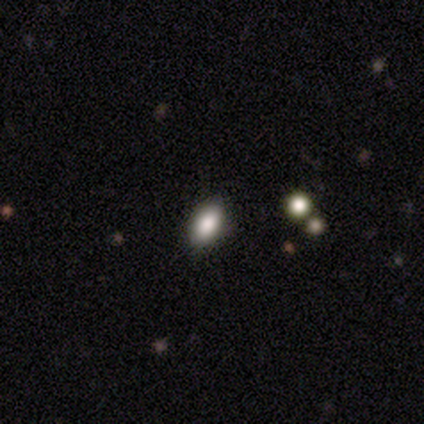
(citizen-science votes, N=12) A smooth galaxy with no disk features (75%) that is in between round and cigar-shaped (78%). Merging: none (89%).